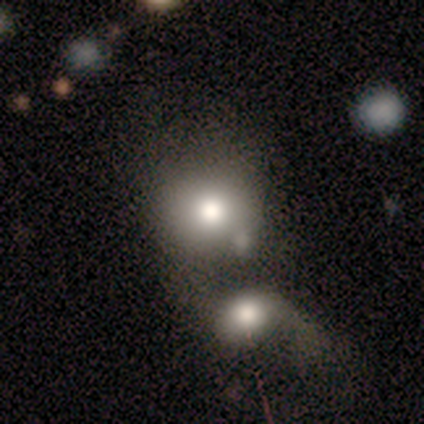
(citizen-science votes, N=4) smooth-or-featured: smooth: 75% | featured or disk: 25% | star or artifact: 0%
  how-rounded: round: 67% | in between: 33% | cigar-shaped: 0%
  merging: merger: 50% | none: 25% | minor disturbance: 25% | major disturbance: 0%